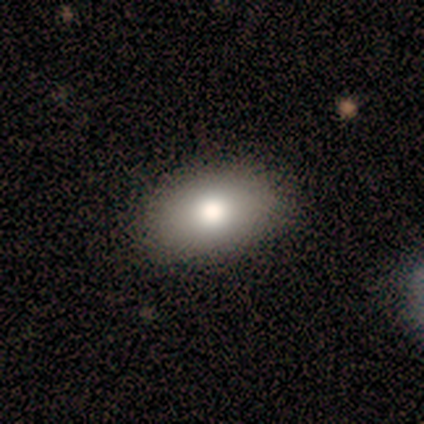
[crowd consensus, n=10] A smooth galaxy with no disk features (80%) that is in between round and cigar-shaped (88%).

Vote fractions:
- Smooth or featured? smooth: 80% / star or artifact: 20% / featured or disk: 0%
- How rounded? in between: 88% / round: 12% / cigar-shaped: 0%
- Merging? none: 88% / minor disturbance: 12% / major disturbance: 0% / merger: 0%